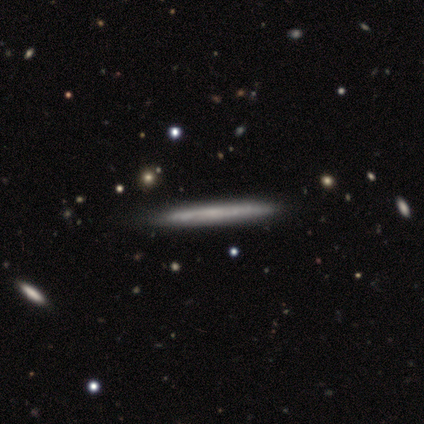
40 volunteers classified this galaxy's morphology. Smooth or featured: smooth — 48% (tied with featured or disk — 48%)
How rounded: cigar-shaped — 100%
Merging: none — 63% (minor disturbance — 11%)